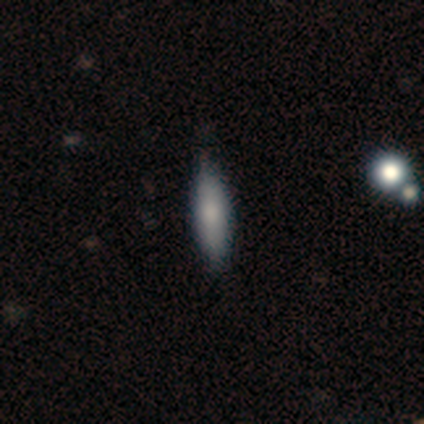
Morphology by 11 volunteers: This appears to be a smooth galaxy with no disk features (82%) that is cigar-shaped (56%). Merging: none (64%).